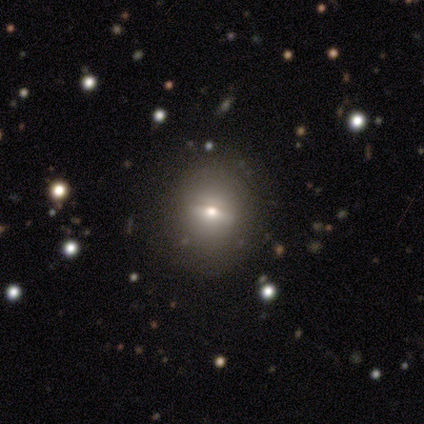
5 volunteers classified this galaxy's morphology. Volunteers were most divided on "smooth or featured": smooth: 60%, featured or disk: 20%, star or artifact: 20%. More confident: how rounded — round (100%); merging — none (100%).